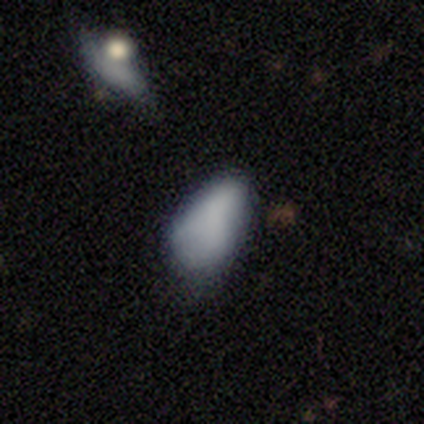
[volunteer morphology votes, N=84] Overall: smooth (77%). How rounded: in between (98%). Merging: minor disturbance (47%; none 32%).